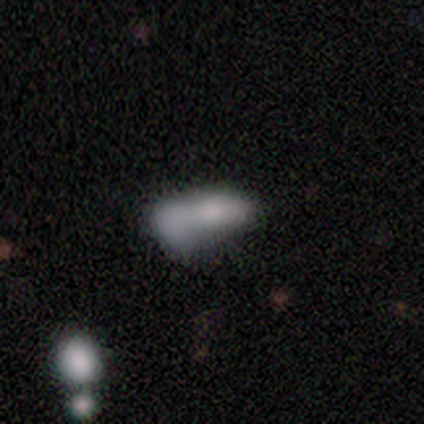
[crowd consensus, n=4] Morphology: type=smooth (100%); roundness=in between (75%); merging=major disturbance (50%).